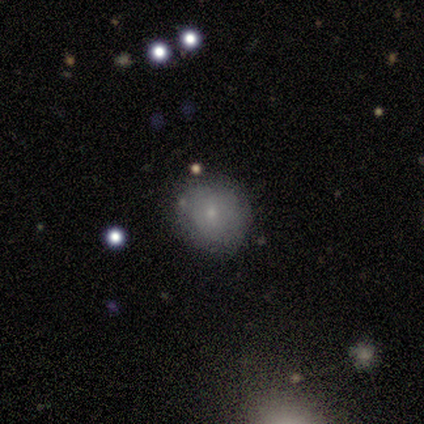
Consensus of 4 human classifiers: Smooth or featured? 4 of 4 (100%) said smooth. How rounded? 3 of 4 (75%) said round. Merging? 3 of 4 (75%) said none.